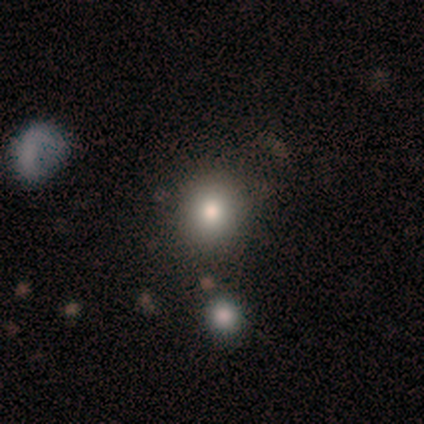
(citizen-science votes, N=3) Overall: smooth (100%). How rounded: in between (67%; round 33%). Merging: minor disturbance (67%; merger 33%).